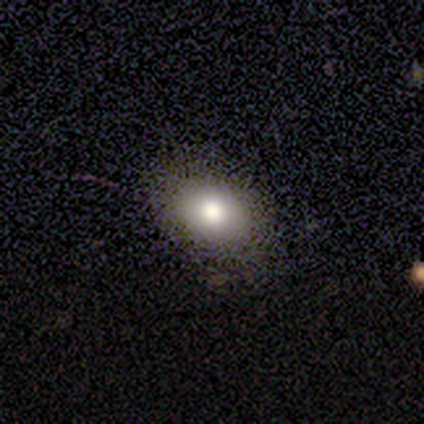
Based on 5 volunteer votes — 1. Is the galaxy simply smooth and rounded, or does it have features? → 100% smooth, 0% featured or disk, 0% star or artifact.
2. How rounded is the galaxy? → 80% in between, 20% round, 0% cigar-shaped.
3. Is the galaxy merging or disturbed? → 80% none, 20% minor disturbance, 0% major disturbance, 0% merger.